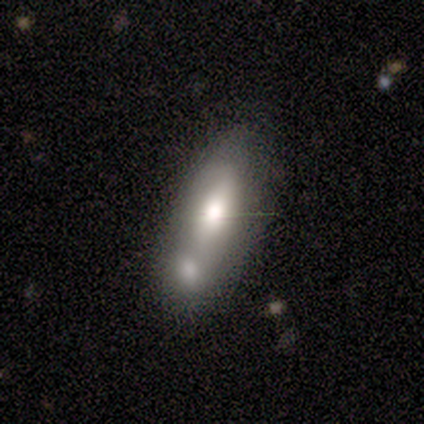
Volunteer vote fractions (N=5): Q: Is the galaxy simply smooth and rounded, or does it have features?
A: smooth — 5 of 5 (100%).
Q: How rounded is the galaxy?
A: in between — 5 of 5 (100%).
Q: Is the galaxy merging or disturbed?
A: merger — 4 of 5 (80%).